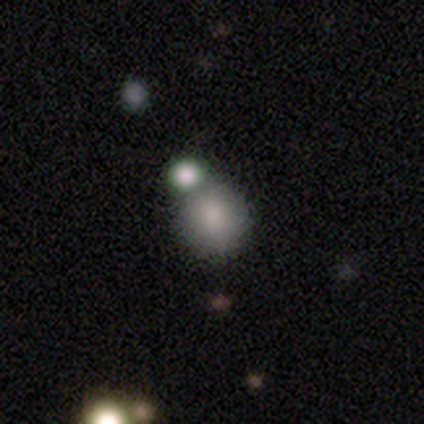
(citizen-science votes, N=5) Volunteers were most divided on "smooth or featured" (2-way tie): smooth: 40%, featured or disk: 40%, star or artifact: 20%; "how rounded" (2-way tie): round: 50%, in between: 50%, cigar-shaped: 0%. More confident: merging — none (50%).